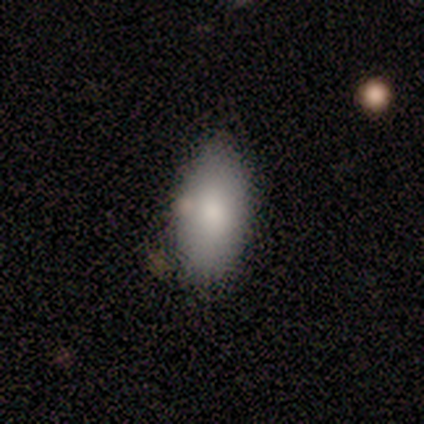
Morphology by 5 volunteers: smooth_or_featured: smooth (p=0.80) [alt: star or artifact p=0.20]
how_rounded: in between (p=1.00)
merging: none (p=1.00)